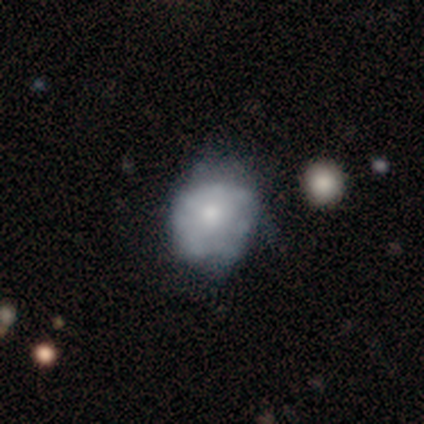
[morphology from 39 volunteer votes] Volunteers were most divided on "merging": minor disturbance: 34%, none: 29%, major disturbance: 11%, merger: 5%. More confident: edge-on disk — no (100%); bar — no (100%); spiral arms — no (71%); bulge size — moderate (57%); smooth or featured — featured or disk (54%).